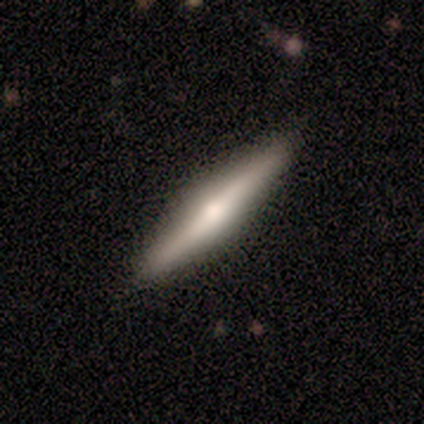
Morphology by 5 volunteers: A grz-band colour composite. It shows a featured or disk galaxy (60%) viewed edge-on (100%) with a rounded central bulge (100%). Merging: none (80%).